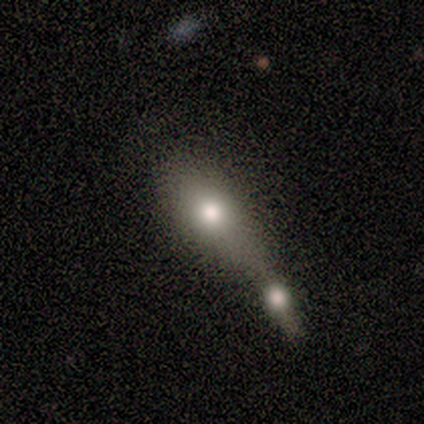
Smooth or featured? smooth (60%)
How rounded? in between (100%)
Merging? merger (80%)